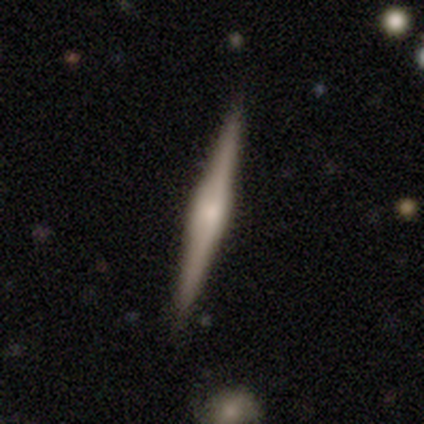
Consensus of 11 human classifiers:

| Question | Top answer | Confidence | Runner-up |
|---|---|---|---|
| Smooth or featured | featured or disk | 91% | smooth (9%) |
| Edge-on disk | yes | 100% | — |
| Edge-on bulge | rounded | 50% | boxy (40%) |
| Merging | none | 91% | major disturbance (9%) |